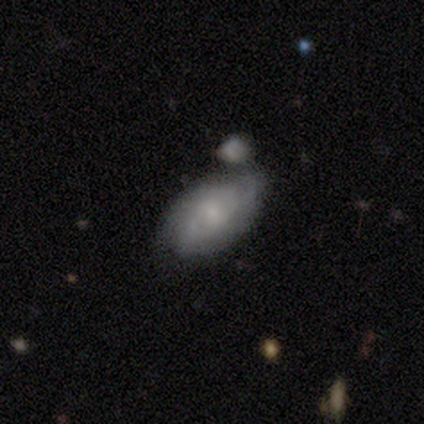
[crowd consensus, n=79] Morphology: type=featured or disk (68%); edge-on=no (96%); bar=no (50%); spiral arms=yes (94%); winding=medium (47%); arm count=2 (45%); bulge=small (50%); merging=merger (34%).